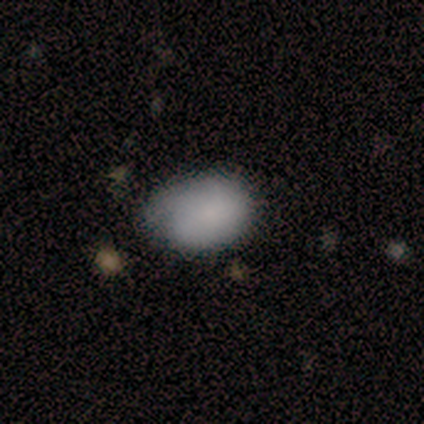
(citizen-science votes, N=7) Volunteers were most divided on "merging": minor disturbance: 57%, none: 29%, merger: 14%, major disturbance: 0%. More confident: how rounded — in between (100%); smooth or featured — smooth (71%).